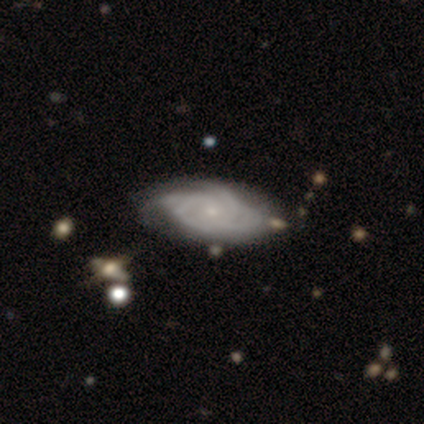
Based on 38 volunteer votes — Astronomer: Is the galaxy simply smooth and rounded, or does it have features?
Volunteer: featured or disk — 89%.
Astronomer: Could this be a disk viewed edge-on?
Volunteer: no — 94%.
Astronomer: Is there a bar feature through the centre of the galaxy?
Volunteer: no — 88%.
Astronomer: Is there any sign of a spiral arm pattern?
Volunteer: yes — 100%.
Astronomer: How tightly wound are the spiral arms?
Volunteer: tight — 62%.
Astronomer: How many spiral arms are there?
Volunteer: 4 — 38% (runner-up: 3, 28%).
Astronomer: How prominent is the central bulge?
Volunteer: small — 88%.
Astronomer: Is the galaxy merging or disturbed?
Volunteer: none — 45%.